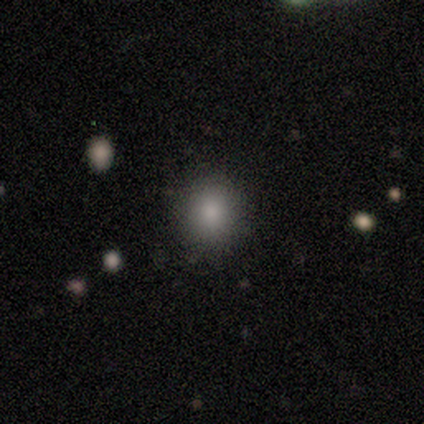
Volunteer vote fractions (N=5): This appears to be a smooth galaxy with no disk features (80%) that is round (50%, tied with in between). Merging: none (100%).